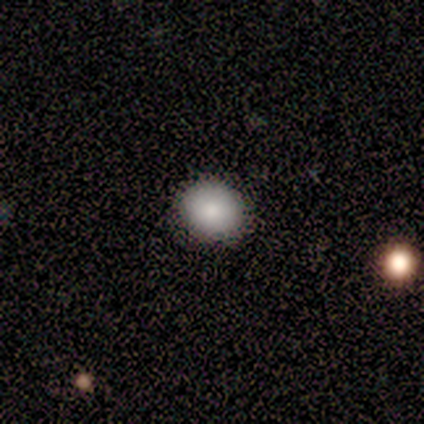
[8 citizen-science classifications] Morphology: type=smooth (100%); roundness=round (75%); merging=none (88%).